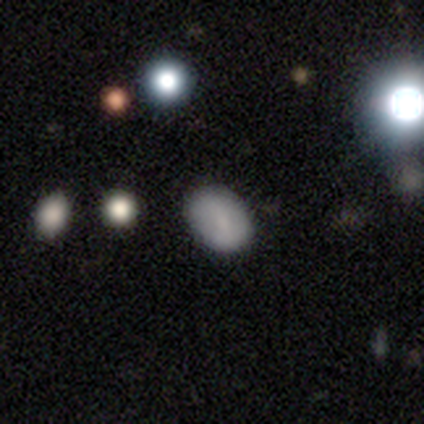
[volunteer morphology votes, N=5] Smooth or featured: smooth — 60% (featured or disk — 20%)
How rounded: in between — 100%
Merging: none — 75% (minor disturbance — 25%)